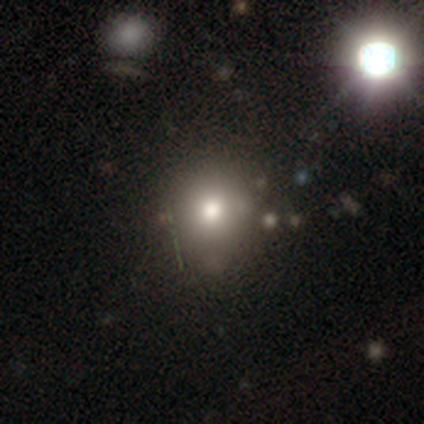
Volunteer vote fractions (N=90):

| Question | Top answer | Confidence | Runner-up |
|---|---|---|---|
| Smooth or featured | smooth | 56% | star or artifact (26%) |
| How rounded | round | 88% | in between (12%) |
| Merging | none | 66% | minor disturbance (22%) |